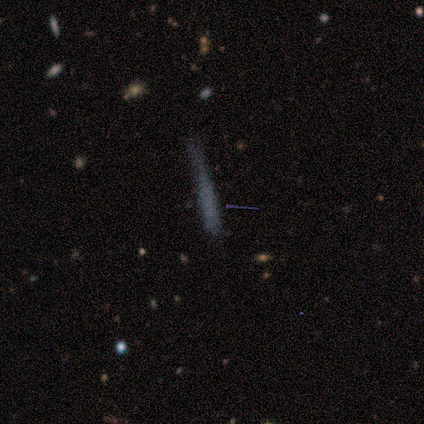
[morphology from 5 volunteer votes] Volunteers were most divided on "smooth or featured" (2-way tie): smooth: 40%, featured or disk: 40%, star or artifact: 20%. More confident: how rounded — cigar-shaped (100%); merging — major disturbance (50%).